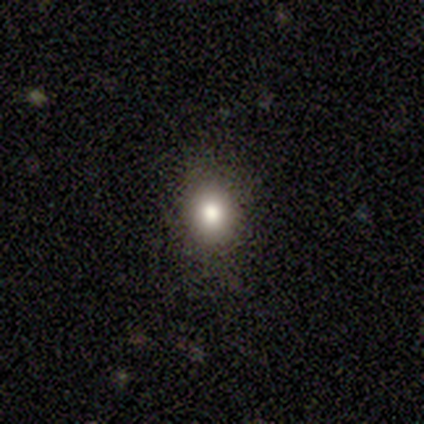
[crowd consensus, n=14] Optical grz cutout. It shows a smooth galaxy with no disk features (50%) that is round (57%). Merging: none (91%).